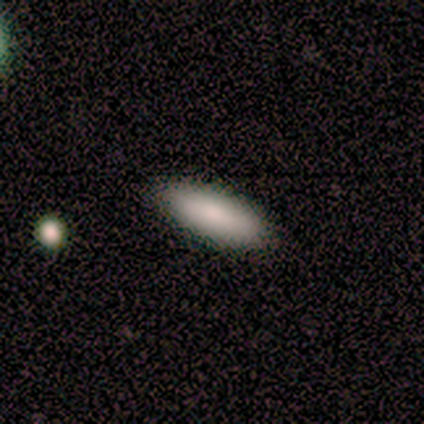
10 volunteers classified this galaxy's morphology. A smooth galaxy with no disk features (100%) that is in between round and cigar-shaped (60%). Merging: none (100%).